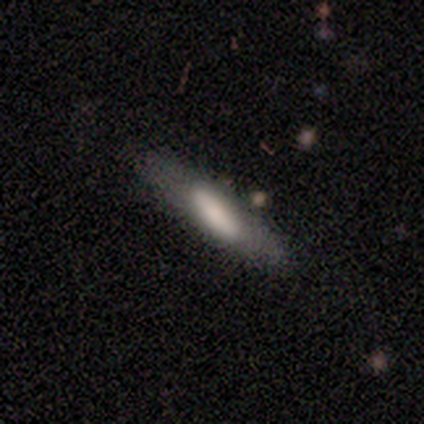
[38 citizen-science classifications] Smooth or featured? smooth (68%)
How rounded? cigar-shaped (73%)
Merging? none (81%)